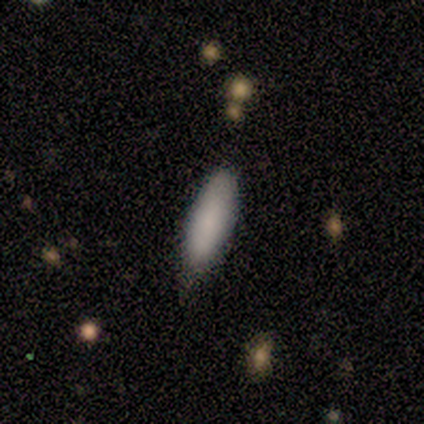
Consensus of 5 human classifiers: A smooth galaxy with no disk features (100%) that is in between round and cigar-shaped (60%).

Vote fractions:
- Smooth or featured? smooth: 100% / featured or disk: 0% / star or artifact: 0%
- How rounded? in between: 60% / cigar-shaped: 40% / round: 0%
- Merging? none: 60% / minor disturbance: 40% / major disturbance: 0% / merger: 0%